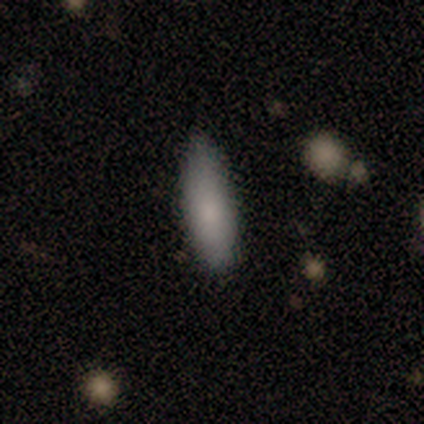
Volunteers were most divided on "how rounded": in between: 60%, cigar-shaped: 40%, round: 0%. More confident: smooth or featured — smooth (100%); merging — none (100%).